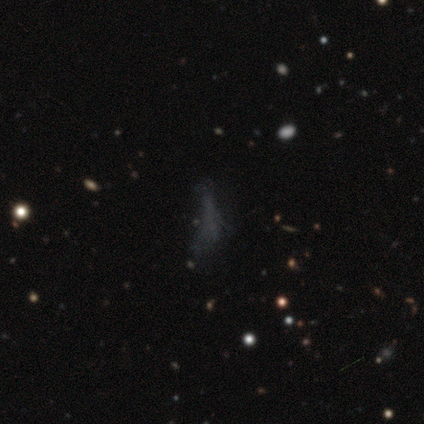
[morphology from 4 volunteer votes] Smooth or featured: star or artifact — 50% (smooth — 25%)